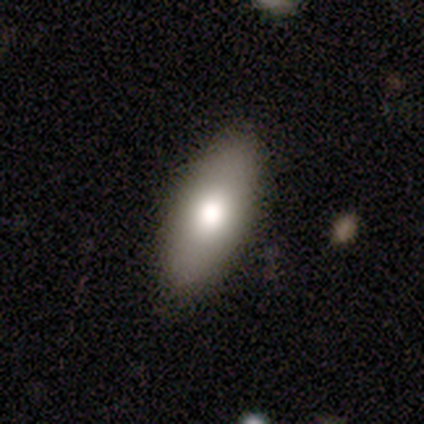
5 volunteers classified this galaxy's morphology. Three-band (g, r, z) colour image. It shows a smooth galaxy with no disk features (60%) that is in between round and cigar-shaped (67%). Merging: none (80%).